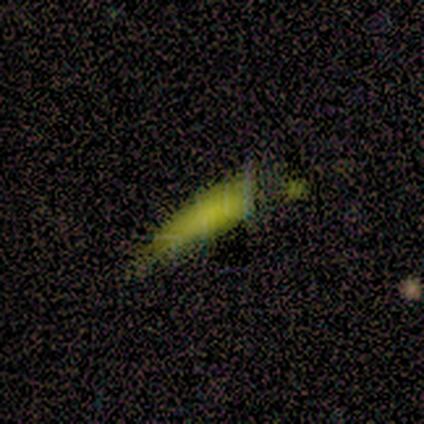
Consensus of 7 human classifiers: This is likely a smooth galaxy (71%). How rounded: clearly cigar-shaped (80%). Merging: possibly minor disturbance (57%).